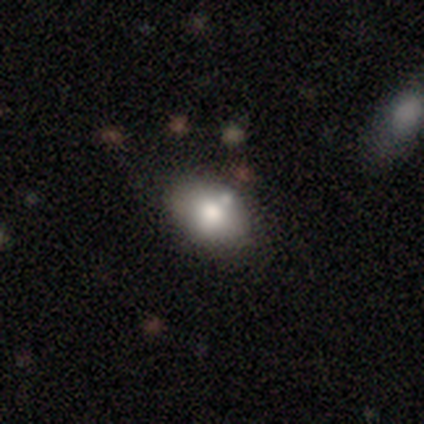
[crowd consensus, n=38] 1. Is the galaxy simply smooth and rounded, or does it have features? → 79% smooth, 16% featured or disk, 5% star or artifact.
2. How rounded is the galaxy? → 67% in between, 33% round, 0% cigar-shaped.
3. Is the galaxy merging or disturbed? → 75% none, 14% minor disturbance, 11% merger, 0% major disturbance.